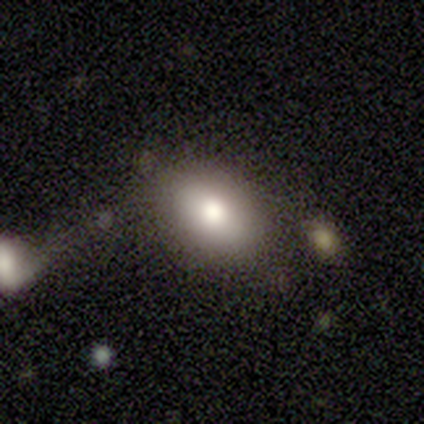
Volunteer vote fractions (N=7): This is likely a smooth galaxy (71%). How rounded: clearly in between (100%). Merging: clearly none (100%).